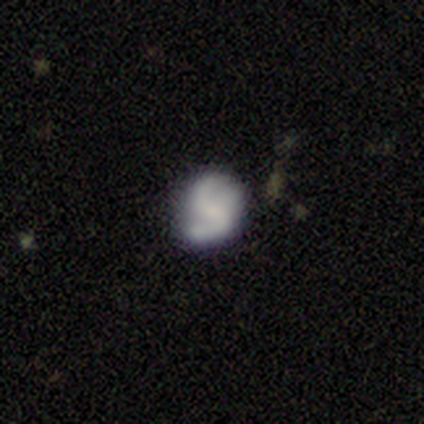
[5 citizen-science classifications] Volunteers were most divided on "bulge size": moderate: 50%, small: 25%, none: 25%, dominant: 0%, large: 0%. More confident: edge-on disk — no (100%); spiral arm count — 2 (100%); smooth or featured — featured or disk (80%); merging — minor disturbance (80%); bar — weak (75%); spiral arms — yes (75%); spiral winding — medium (67%).